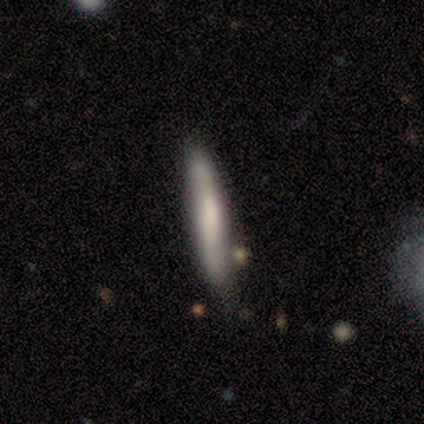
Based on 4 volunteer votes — smooth_or_featured: smooth (p=0.50) [tied with: featured or disk p=0.50]
how_rounded: cigar-shaped (p=1.00)
merging: none (p=0.50) [alt: minor disturbance p=0.25]